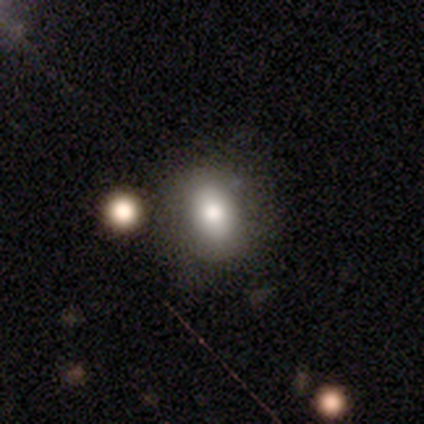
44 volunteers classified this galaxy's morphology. smooth 80%, star or artifact 14%, featured or disk 7%. Down the decision tree: how rounded — in between (66%); merging — none (63%).